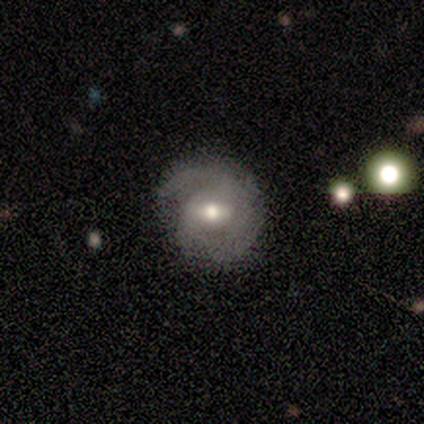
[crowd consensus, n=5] This appears to be a featured or disk galaxy (80%) with no bar (50%), tight (100%) spiral arms (100%) and a moderate central bulge (100%). Merging: none (100%).